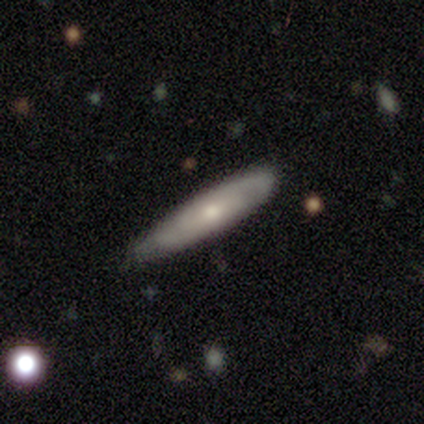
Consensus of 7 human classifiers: Overall: featured or disk (57%; smooth 43%). Edge-on disk: yes (50%, tied with no). Edge-on bulge: rounded (100%). Merging: none (86%).